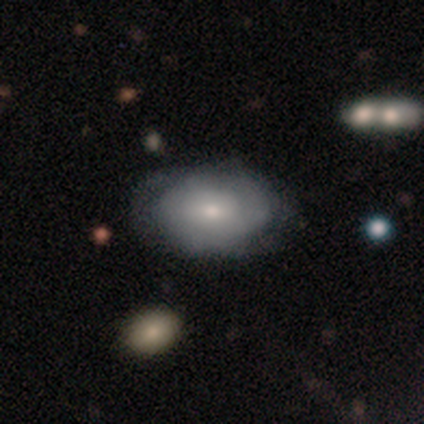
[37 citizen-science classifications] This appears to be a smooth galaxy with no disk features (54%) that is in between round and cigar-shaped (70%). Merging: none (61%).